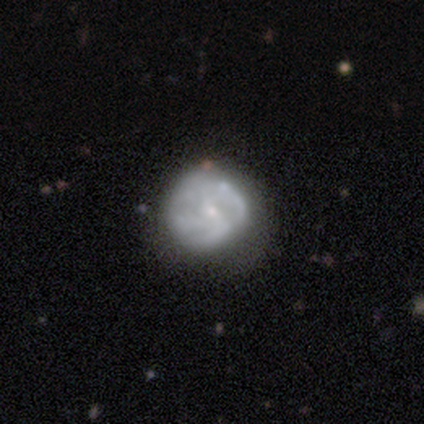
smooth_or_featured: featured or disk (p=0.68) [alt: smooth p=0.21]
disk_edge_on: no (p=0.96) [alt: yes p=0.04]
bar: no (p=0.72) [alt: weak p=0.28]
has_spiral_arms: yes (p=0.56) [alt: no p=0.44]
spiral_winding: tight (p=0.36) [tied with: medium p=0.36]
spiral_arm_count: can't tell (p=0.57) [alt: 4 p=0.21]
bulge_size: small (p=0.84) [alt: moderate p=0.12]
merging: none (p=0.65) [alt: minor disturbance p=0.24]